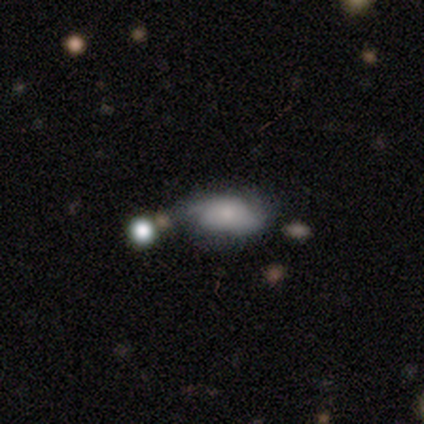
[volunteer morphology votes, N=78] smooth_or_featured: smooth (p=0.51) [alt: featured or disk p=0.46]
how_rounded: in between (p=0.95) [alt: round p=0.03]
merging: none (p=0.45) [alt: minor disturbance p=0.43]